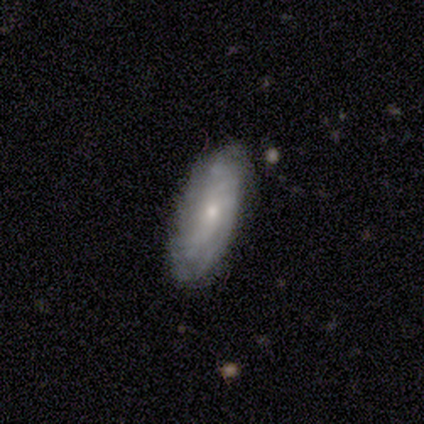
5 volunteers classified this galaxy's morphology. Smooth or featured? smooth (60%)
How rounded? cigar-shaped (67%)
Merging? none (80%)